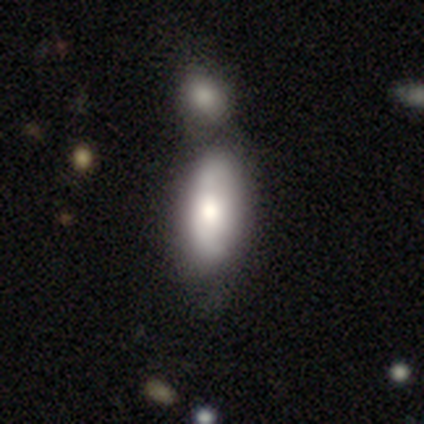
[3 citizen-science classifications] Morphology: type=smooth (67%); roundness=in between (100%); merging=none (33%, tied with minor disturbance and major disturbance).